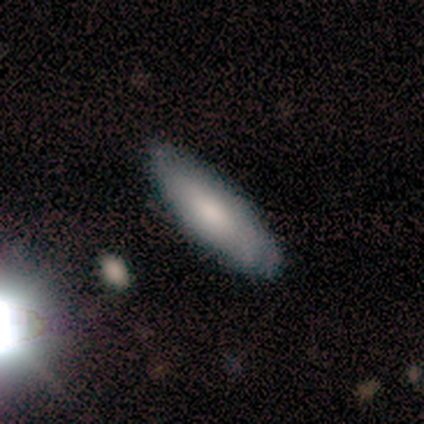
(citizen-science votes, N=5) This appears to be a smooth galaxy with no disk features (60%) that is in between round and cigar-shaped (100%). Merging: none (60%).